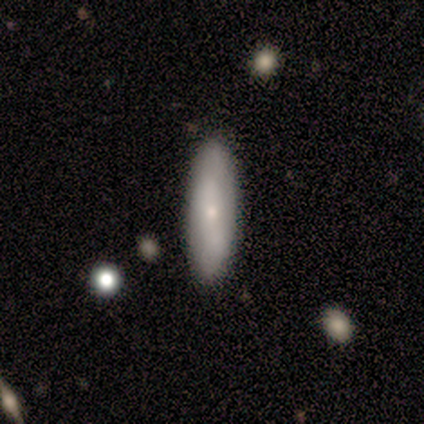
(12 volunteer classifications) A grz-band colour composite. It shows a smooth galaxy with no disk features (58%) that is in between round and cigar-shaped (57%). Merging: none (100%).